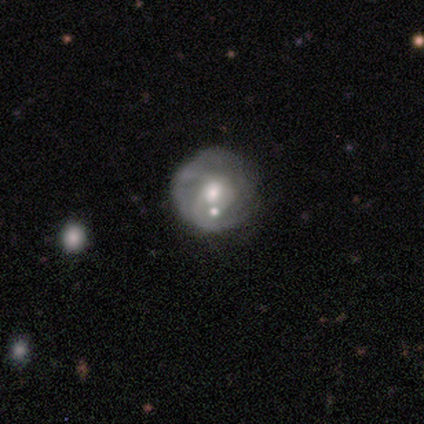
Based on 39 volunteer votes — Smooth or featured: featured or disk — 77% (smooth — 18%)
Edge-on disk: no — 100%
Bar: no — 87% (weak — 13%)
Spiral arms: yes — 60% (no — 40%)
Spiral winding: tight — 44% (medium — 28%)
Spiral arm count: can't tell — 56% (1 — 22%)
Bulge size: moderate — 77% (small — 13%)
Merging: none — 59% (minor disturbance — 16%)